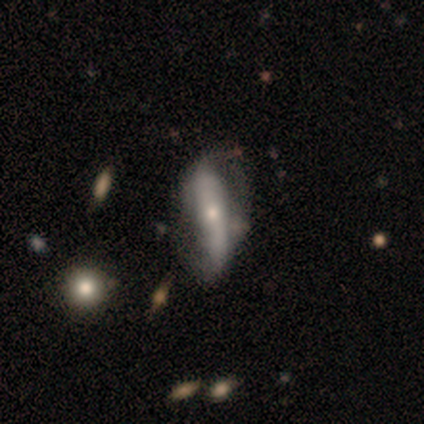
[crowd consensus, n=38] Volunteers were most divided on "bar": strong: 56%, no: 39%, weak: 6%. Remaining: spiral arm count — 2 (93%); spiral arms — yes (83%); smooth or featured — featured or disk (71%); edge-on disk — no (67%); spiral winding — loose (67%); bulge size — small (56%); merging — minor disturbance (49%).